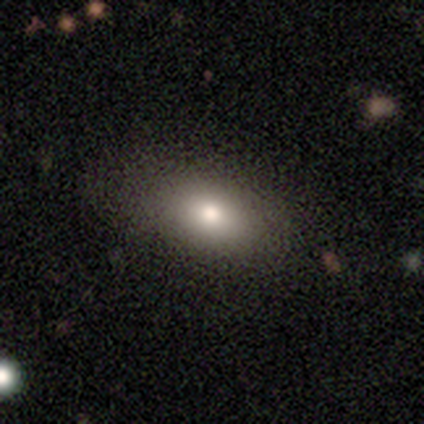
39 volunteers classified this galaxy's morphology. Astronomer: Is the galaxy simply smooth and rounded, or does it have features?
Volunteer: smooth — 77%.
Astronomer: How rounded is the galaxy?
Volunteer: in between — 93%.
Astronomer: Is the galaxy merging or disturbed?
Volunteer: none — 48%.